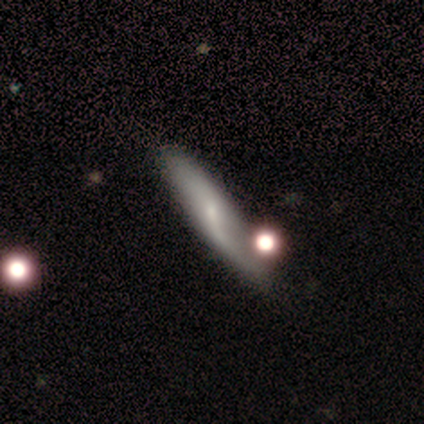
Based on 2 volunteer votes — Morphology: type=smooth (100%); roundness=in between (50%, tied with cigar-shaped); merging=none (50%, tied with major disturbance).